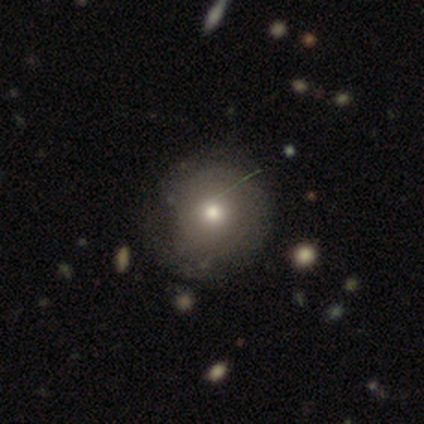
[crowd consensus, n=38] This is likely a smooth galaxy (63%). How rounded: clearly round (92%). Merging: possibly none (53%).